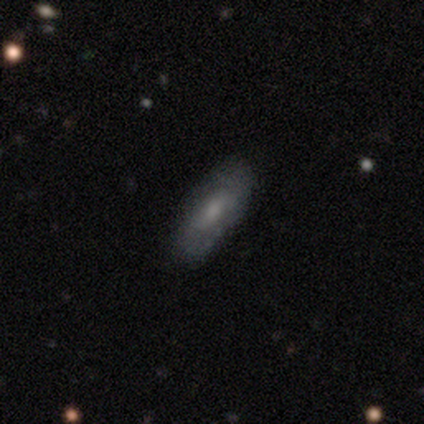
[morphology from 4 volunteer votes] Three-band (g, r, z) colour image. It shows a smooth galaxy with no disk features (75%) that is in between round and cigar-shaped (67%). Merging: none (75%).